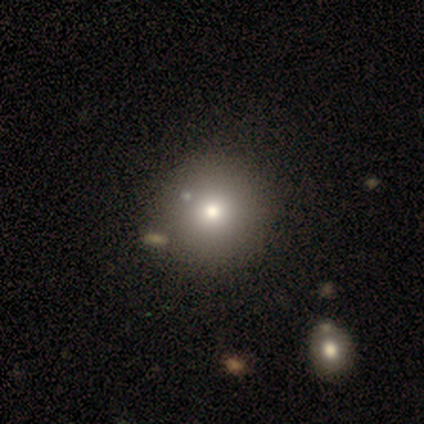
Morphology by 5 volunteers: smooth-or-featured: featured or disk: 40% (tied) | star or artifact: 40% (tied) | smooth: 20%
  disk-edge-on: no: 100% | yes: 0%
    bar: weak: 50% (tied) | no: 50% (tied) | strong: 0%
    has-spiral-arms: yes: 50% (tied) | no: 50% (tied)
      spiral-winding: loose: 100% | tight: 0% | medium: 0%
      spiral-arm-count: 2: 100% | 1: 0% | 3: 0% | 4: 0% | more than 4: 0% | can't tell: 0%
    bulge-size: large: 50% (tied) | moderate: 50% (tied) | dominant: 0% | small: 0% | none: 0%
  merging: none: 67% | minor disturbance: 33% | major disturbance: 0% | merger: 0%